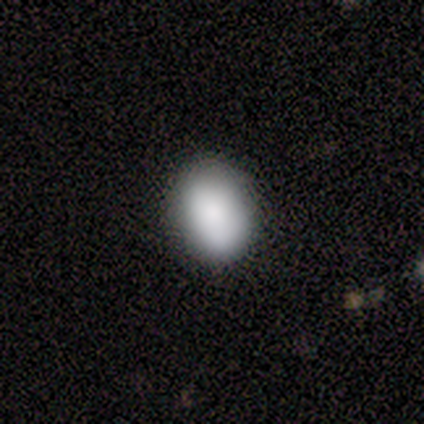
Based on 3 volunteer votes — Morphology: type=smooth (67%); roundness=in between (100%); merging=none (100%).